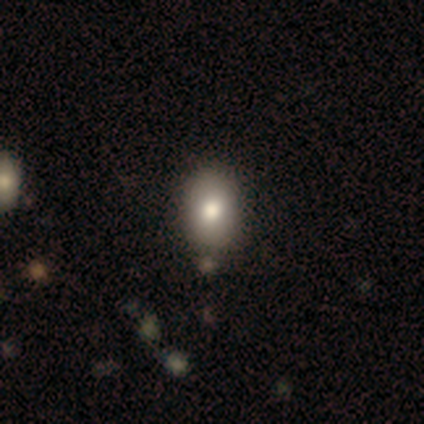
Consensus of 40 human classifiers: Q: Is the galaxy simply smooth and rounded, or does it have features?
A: smooth — 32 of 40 (80%).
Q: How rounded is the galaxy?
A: in between — 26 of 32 (81%).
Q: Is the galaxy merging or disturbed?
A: none — 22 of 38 (58%).